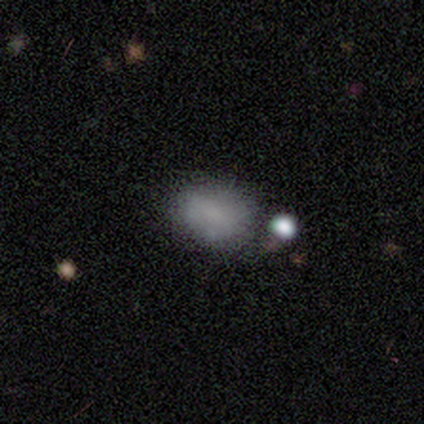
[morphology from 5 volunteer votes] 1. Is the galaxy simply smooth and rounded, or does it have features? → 60% smooth, 20% featured or disk, 20% star or artifact.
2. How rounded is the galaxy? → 100% in between, 0% round, 0% cigar-shaped.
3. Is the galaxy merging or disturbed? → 50% none (tied), 50% merger (tied), 0% minor disturbance, 0% major disturbance.